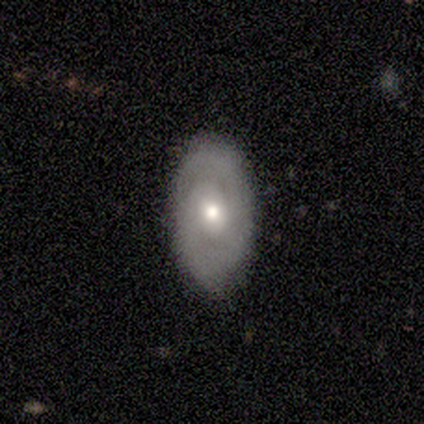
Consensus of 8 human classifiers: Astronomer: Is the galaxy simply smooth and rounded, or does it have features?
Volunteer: smooth — 50%.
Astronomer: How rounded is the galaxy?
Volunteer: in between — 100%.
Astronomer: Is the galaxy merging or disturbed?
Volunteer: none — 83%.